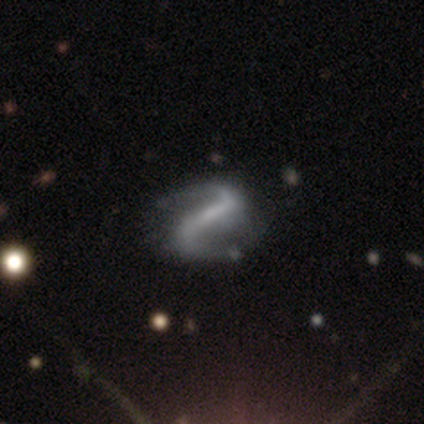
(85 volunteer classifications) featured or disk 93%, smooth 4%, star or artifact 4%. Down the decision tree: edge-on disk — no (96%); bar — strong (62%); spiral arms — yes (92%); spiral arm count — 2 (94%); spiral winding — loose (66%); bulge size — none (45%); merging — none (79%).